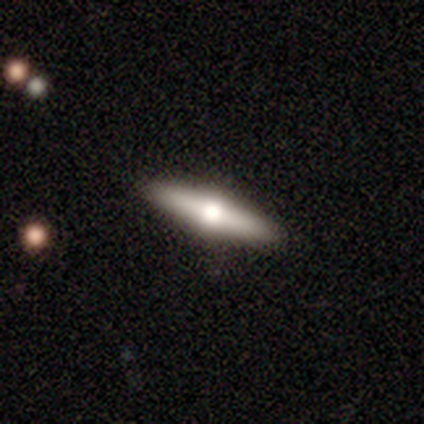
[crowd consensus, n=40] Morphology: type=featured or disk (68%); edge-on=yes (93%); edge-on bulge=rounded (96%); merging=none (86%).